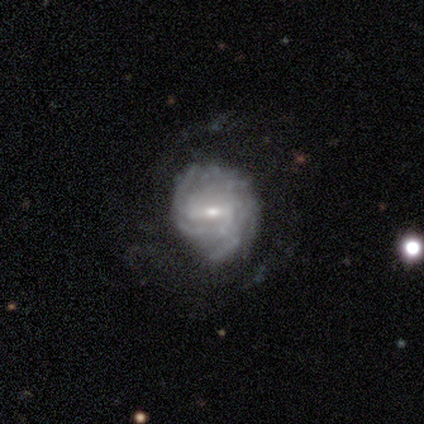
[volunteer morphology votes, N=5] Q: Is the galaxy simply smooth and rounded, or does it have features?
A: featured or disk — 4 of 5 (80%).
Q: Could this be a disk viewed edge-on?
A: no — 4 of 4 (100%).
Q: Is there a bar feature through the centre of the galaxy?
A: weak — 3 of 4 (75%).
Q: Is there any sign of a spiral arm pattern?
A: yes — 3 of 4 (75%).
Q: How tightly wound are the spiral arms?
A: tight — 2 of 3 (67%).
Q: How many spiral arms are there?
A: can't tell — 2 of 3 (67%).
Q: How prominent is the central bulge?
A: moderate — 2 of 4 (50%, tied with small).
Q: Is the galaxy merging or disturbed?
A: none — 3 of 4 (75%).